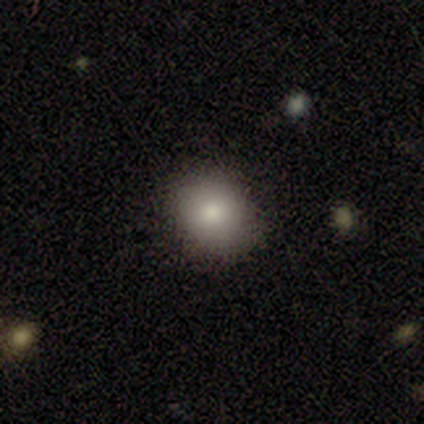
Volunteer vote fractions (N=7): Smooth or featured: smooth — 100%
How rounded: round — 86% (in between — 14%)
Merging: none — 100%